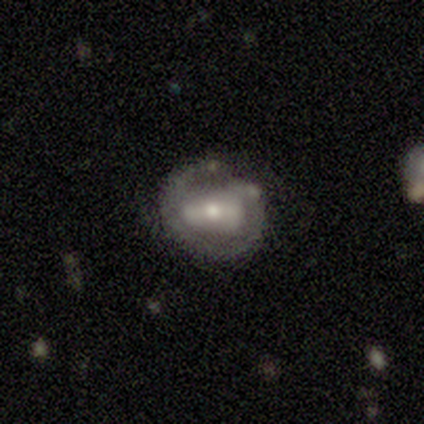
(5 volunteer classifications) featured or disk 60%, smooth 20%, star or artifact 20%. Down the decision tree: edge-on disk — no (100%); bar — strong (67%); spiral arms — no (67%); bulge size — moderate (67%); merging — none (100%).